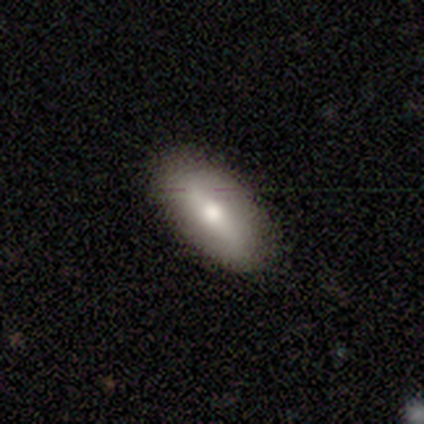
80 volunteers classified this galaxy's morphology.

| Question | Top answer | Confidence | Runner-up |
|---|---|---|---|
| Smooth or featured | smooth | 71% | featured or disk (28%) |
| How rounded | in between | 88% | cigar-shaped (9%) |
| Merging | none | 43% | minor disturbance (5%) |